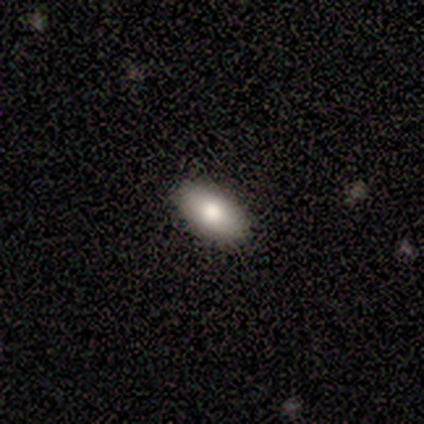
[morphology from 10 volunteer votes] smooth 100%, featured or disk 0%, star or artifact 0%. Down the decision tree: how rounded — in between (100%); merging — none (100%).